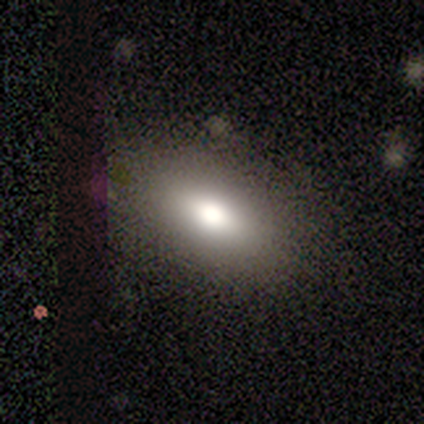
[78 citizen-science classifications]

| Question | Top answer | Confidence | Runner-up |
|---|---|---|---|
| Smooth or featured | smooth | 73% | star or artifact (14%) |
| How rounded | in between | 95% | round (5%) |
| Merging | none | 57% | minor disturbance (4%) |